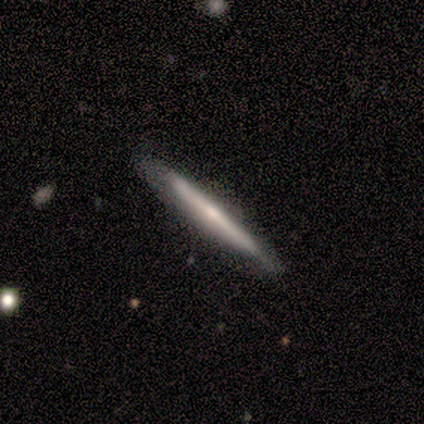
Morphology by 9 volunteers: A featured or disk galaxy (67%) viewed edge-on (100%) with a rounded central bulge (83%).

Vote fractions:
- Smooth or featured? featured or disk: 67% / smooth: 22% / star or artifact: 11%
- Edge-on disk? yes: 100% / no: 0%
- Edge-on bulge? rounded: 83% / none: 17% / boxy: 0%
- Merging? none: 88% / minor disturbance: 12% / major disturbance: 0% / merger: 0%